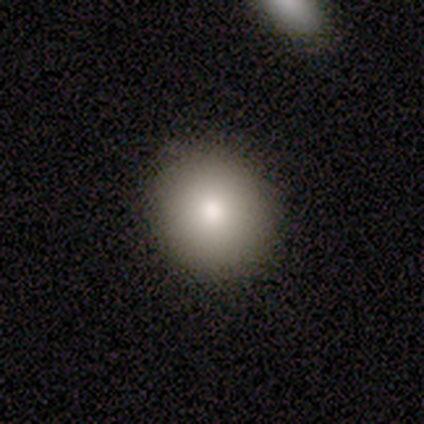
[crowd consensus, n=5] smooth 80%, featured or disk 20%, star or artifact 0%. Down the decision tree: how rounded — round (50%, tied with in between); merging — none (100%).